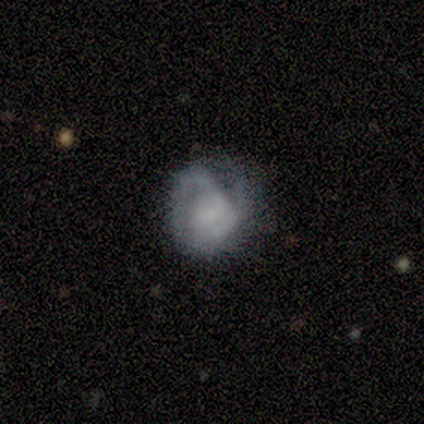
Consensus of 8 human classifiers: This appears to be a featured or disk galaxy (100%) with no bar (88%), 2 (60%) medium (40%, tied with loose) spiral arms (62%) and a small central bulge (75%). Merging: minor disturbance (38%, tied with major disturbance).